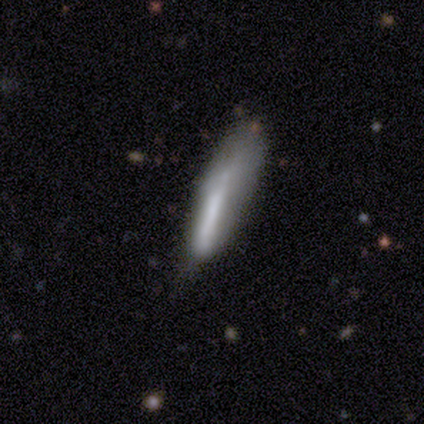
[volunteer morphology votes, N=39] Smooth or featured: smooth — 62% (featured or disk — 26%)
How rounded: cigar-shaped — 83% (in between — 17%)
Merging: major disturbance — 35% (minor disturbance — 32%)